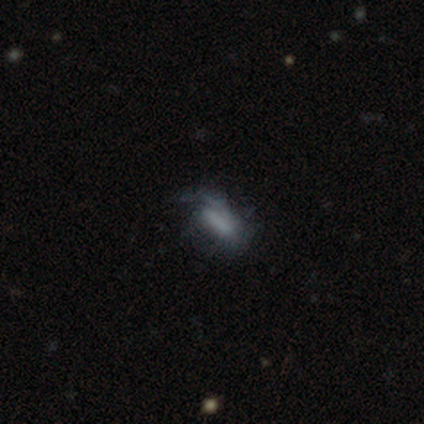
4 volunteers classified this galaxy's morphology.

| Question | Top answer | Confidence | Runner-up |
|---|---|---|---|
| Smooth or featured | smooth | 75% | featured or disk (25%) |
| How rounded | in between | 67% | cigar-shaped (33%) |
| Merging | minor disturbance | 100% | — |